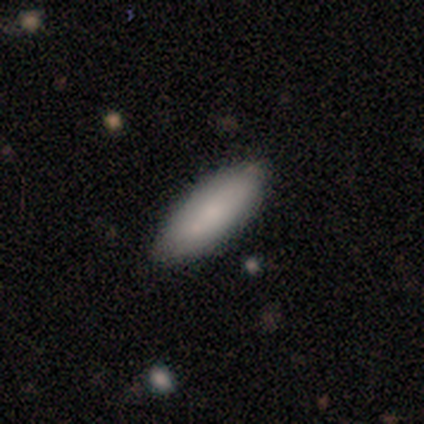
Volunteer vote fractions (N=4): A smooth galaxy with no disk features (75%) that is in between round and cigar-shaped (67%).

Vote fractions:
- Smooth or featured? smooth: 75% / featured or disk: 25% / star or artifact: 0%
- How rounded? in between: 67% / cigar-shaped: 33% / round: 0%
- Merging? none: 100% / minor disturbance: 0% / major disturbance: 0% / merger: 0%